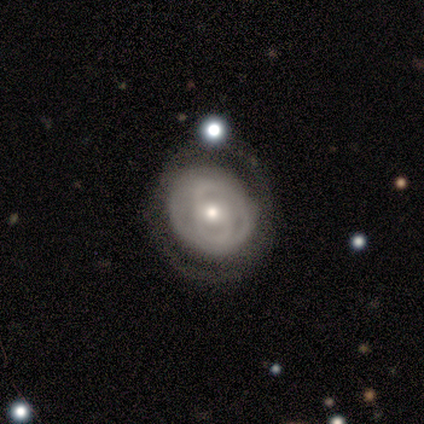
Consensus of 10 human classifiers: Q: Smooth or featured?
A: featured or disk (70%); runner-up: smooth (30%)
Q: Edge-on disk?
A: no (100%)
Q: Bar?
A: no (71%); runner-up: weak (29%)
Q: Spiral arms?
A: yes (71%); runner-up: no (29%)
Q: Spiral winding?
A: medium (60%); runner-up: tight (20%)
Q: Spiral arm count?
A: 2 (60%); runner-up: 4 (20%)
Q: Bulge size?
A: small (71%); runner-up: moderate (29%)
Q: Merging?
A: none (90%); runner-up: minor disturbance (10%)